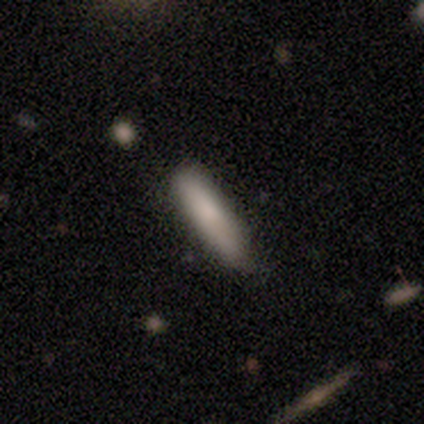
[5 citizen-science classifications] smooth-or-featured: smooth: 80% | featured or disk: 20% | star or artifact: 0%
  how-rounded: cigar-shaped: 100% | round: 0% | in between: 0%
  merging: none: 80% | minor disturbance: 20% | major disturbance: 0% | merger: 0%